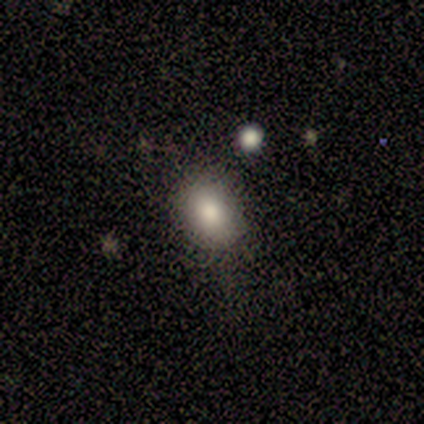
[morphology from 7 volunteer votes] Q: Smooth or featured?
A: smooth (86%); runner-up: star or artifact (14%)
Q: How rounded?
A: in between (67%); runner-up: round (33%)
Q: Merging?
A: none (83%); runner-up: minor disturbance (17%)